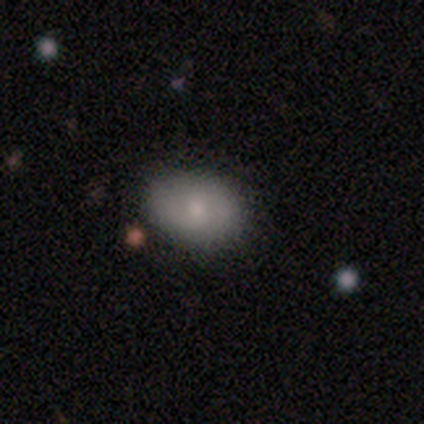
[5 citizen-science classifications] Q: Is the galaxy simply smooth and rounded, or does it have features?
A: smooth — 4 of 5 (80%).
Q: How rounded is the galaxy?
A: in between — 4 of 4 (100%).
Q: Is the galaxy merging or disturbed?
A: none — 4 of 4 (100%).